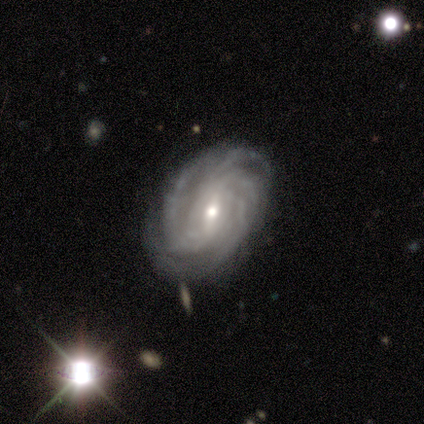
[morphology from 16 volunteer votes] Smooth or featured: featured or disk — 94% (star or artifact — 6%)
Edge-on disk: no — 100%
Bar: weak — 67% (strong — 20%)
Spiral arms: yes — 100%
Spiral winding: tight — 67% (medium — 27%)
Spiral arm count: 4 — 33% (tied with can't tell — 33%)
Bulge size: small — 47% (moderate — 40%)
Merging: none — 93% (minor disturbance — 7%)